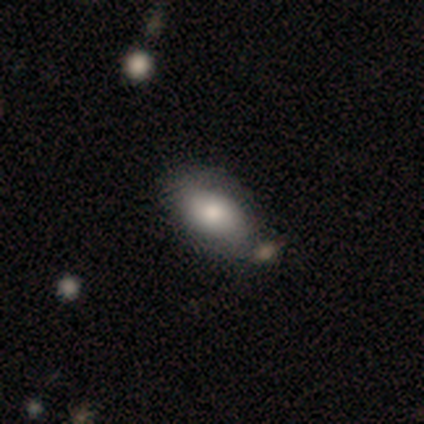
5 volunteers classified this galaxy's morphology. A smooth galaxy with no disk features (100%) that is in between round and cigar-shaped (100%). Merging: none (100%).